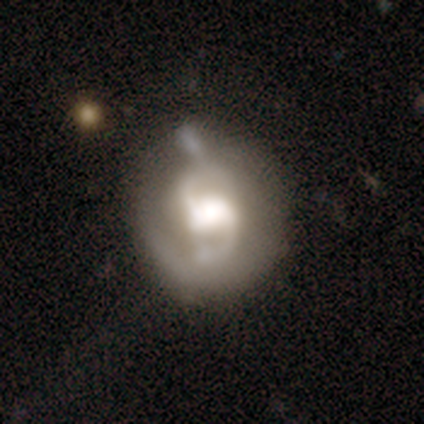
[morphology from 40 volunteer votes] featured or disk 78%, smooth 15%, star or artifact 8%. Down the decision tree: edge-on disk — no (97%); bar — weak (53%); spiral arms — yes (93%); spiral arm count — 2 (86%); spiral winding — medium (50%); bulge size — large (57%); merging — none (38%).